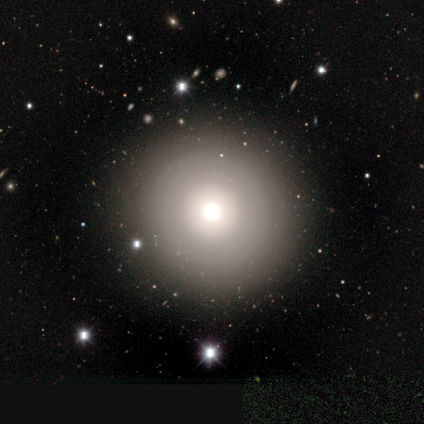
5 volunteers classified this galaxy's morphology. Volunteers were most divided on "smooth or featured" (2-way tie): featured or disk: 40%, star or artifact: 40%, smooth: 20%; "bulge size" (2-way tie): dominant: 50%, moderate: 50%, large: 0%, small: 0%, none: 0%. More confident: edge-on disk — no (100%); bar — no (100%); spiral arms — no (100%); merging — none (100%).